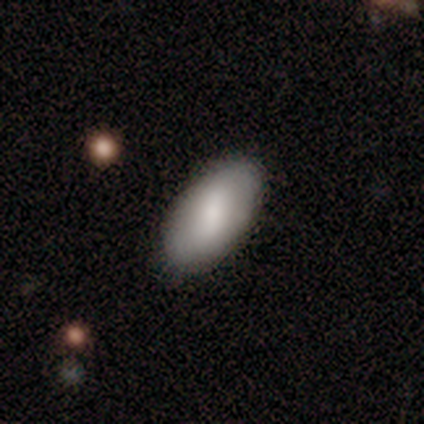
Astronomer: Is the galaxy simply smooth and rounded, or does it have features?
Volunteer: smooth — 82%.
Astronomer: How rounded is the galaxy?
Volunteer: in between — 94%.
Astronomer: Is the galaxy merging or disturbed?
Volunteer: none — 91%.